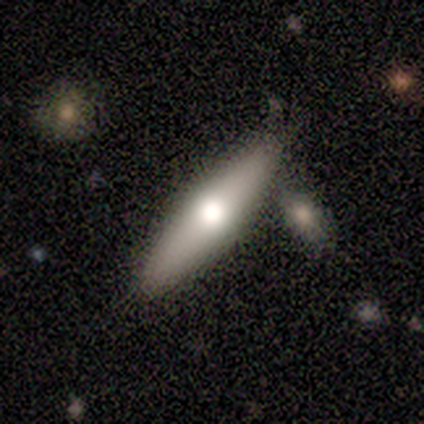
This is likely a smooth galaxy (70%). How rounded: likely in between (71%). Merging: likely none (70%).